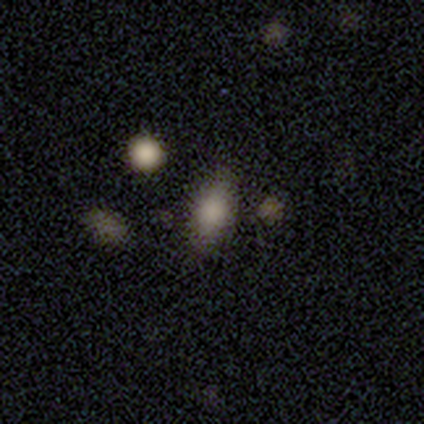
This is clearly a smooth galaxy (100%). How rounded: clearly in between (100%). Merging: clearly none (100%).